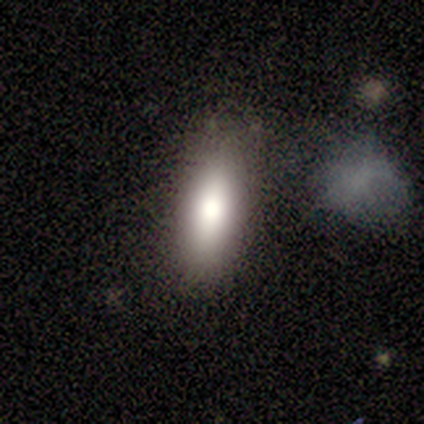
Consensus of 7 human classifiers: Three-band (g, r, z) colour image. It shows a smooth galaxy with no disk features (71%) that is in between round and cigar-shaped (60%). Merging: none (100%).